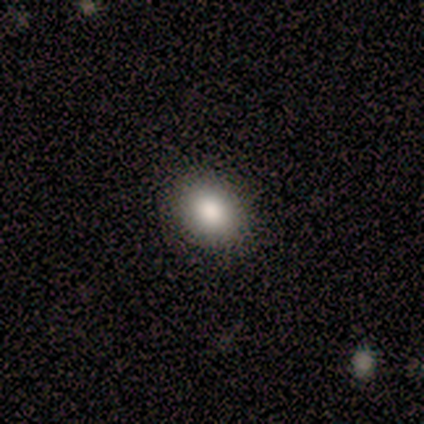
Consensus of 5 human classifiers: smooth 100%, featured or disk 0%, star or artifact 0%. Down the decision tree: how rounded — in between (60%); merging — none (80%).